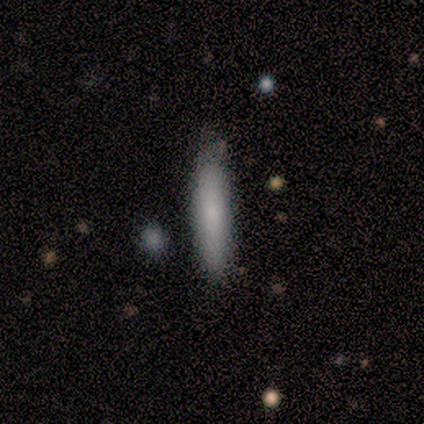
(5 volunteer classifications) Volunteers were most divided on "smooth or featured": smooth: 80%, featured or disk: 20%, star or artifact: 0%. More confident: how rounded — cigar-shaped (100%); merging — none (80%).